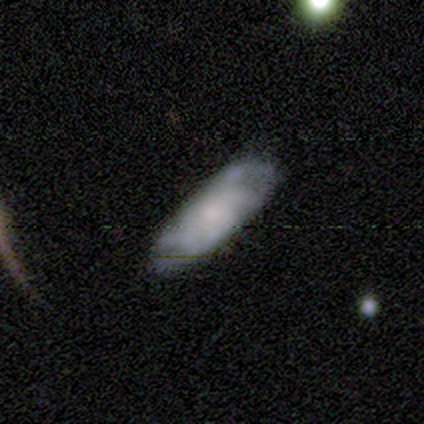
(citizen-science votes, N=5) smooth-or-featured: featured or disk: 80% | star or artifact: 20% | smooth: 0%
  disk-edge-on: no: 75% | yes: 25%
    bar: no: 100% | strong: 0% | weak: 0%
    has-spiral-arms: yes: 100% | no: 0%
      spiral-winding: tight: 100% | medium: 0% | loose: 0%
      spiral-arm-count: 2: 33% (tied) | 4: 33% (tied) | can't tell: 33% (tied) | 1: 0% | 3: 0% | more than 4: 0%
    bulge-size: small: 100% | dominant: 0% | large: 0% | moderate: 0% | none: 0%
  merging: none: 50% (tied) | minor disturbance: 50% (tied) | major disturbance: 0% | merger: 0%